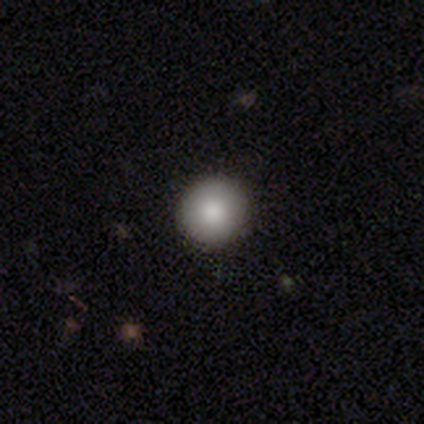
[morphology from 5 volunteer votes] Smooth or featured? smooth (100%)
How rounded? round (80%)
Merging? none (60%)